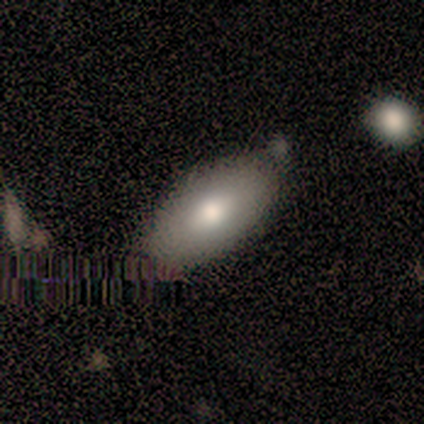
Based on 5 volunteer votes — Q: Smooth or featured?
A: smooth (60%); runner-up: star or artifact (40%)
Q: How rounded?
A: in between (100%)
Q: Merging?
A: minor disturbance (67%); runner-up: none (33%)